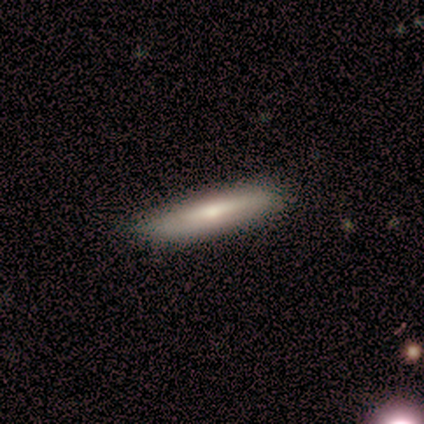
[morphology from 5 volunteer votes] smooth-or-featured: smooth: 60% | featured or disk: 40% | star or artifact: 0%
  how-rounded: cigar-shaped: 100% | round: 0% | in between: 0%
  merging: none: 80% | minor disturbance: 20% | major disturbance: 0% | merger: 0%